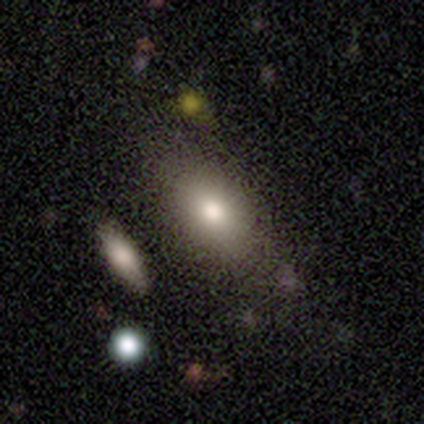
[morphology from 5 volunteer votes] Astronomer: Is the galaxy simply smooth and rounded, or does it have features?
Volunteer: smooth — 80%.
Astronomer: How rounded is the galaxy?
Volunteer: in between — 100%.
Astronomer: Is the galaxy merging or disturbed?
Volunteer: none — 80%.